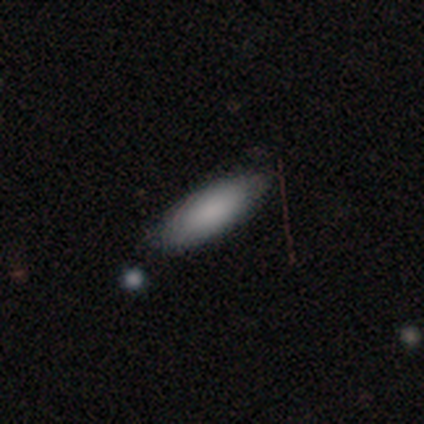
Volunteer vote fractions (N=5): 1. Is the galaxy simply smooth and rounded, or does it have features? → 100% smooth, 0% featured or disk, 0% star or artifact.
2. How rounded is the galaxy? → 80% in between, 20% cigar-shaped, 0% round.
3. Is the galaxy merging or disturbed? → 100% none, 0% minor disturbance, 0% major disturbance, 0% merger.